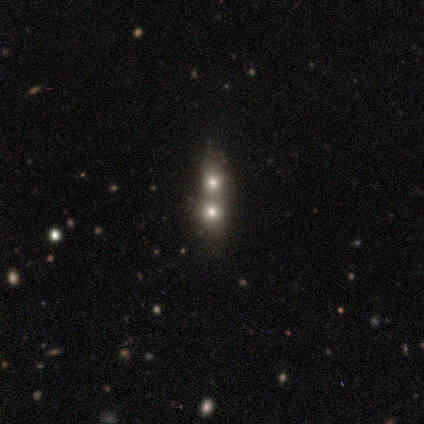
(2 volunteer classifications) smooth 50% (tied), featured or disk 50% (tied), star or artifact 0%. Down the decision tree: how rounded — in between (100%); merging — none (50%, tied with merger).